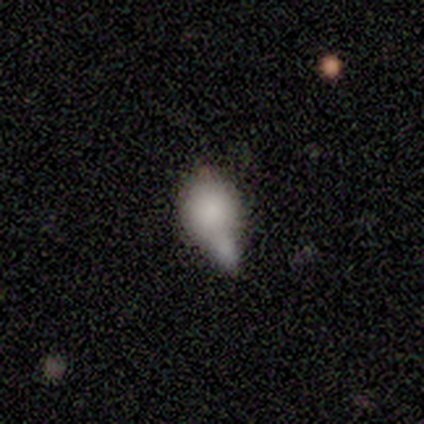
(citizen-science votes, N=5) smooth 80%, star or artifact 20%, featured or disk 0%. Down the decision tree: how rounded — round (50%, tied with in between); merging — minor disturbance (50%).